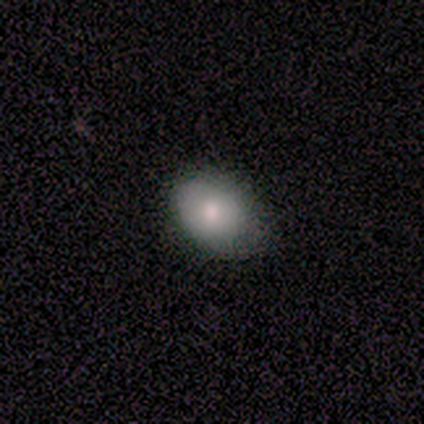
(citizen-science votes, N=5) This appears to be a smooth galaxy with no disk features (60%) that is round (67%). Merging: none (80%).